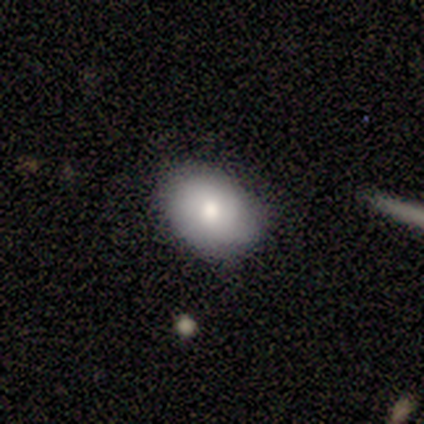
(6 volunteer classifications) Smooth or featured? 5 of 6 (83%) said smooth. How rounded? 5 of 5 (100%) said in between. Merging? 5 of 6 (83%) said none.